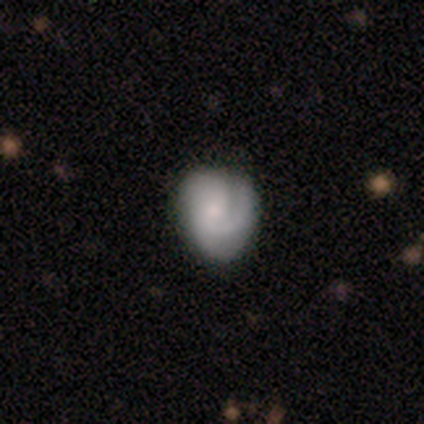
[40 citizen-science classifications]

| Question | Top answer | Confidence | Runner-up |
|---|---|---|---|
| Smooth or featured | featured or disk | 78% | smooth (15%) |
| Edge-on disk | no | 97% | yes (3%) |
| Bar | no | 60% | weak (37%) |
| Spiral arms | yes | 97% | no (3%) |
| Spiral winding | tight | 52% | medium (34%) |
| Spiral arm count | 1 | 45% | 2 (24%) |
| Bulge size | small | 50% | moderate (27%) |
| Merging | none | 65% | minor disturbance (27%) |